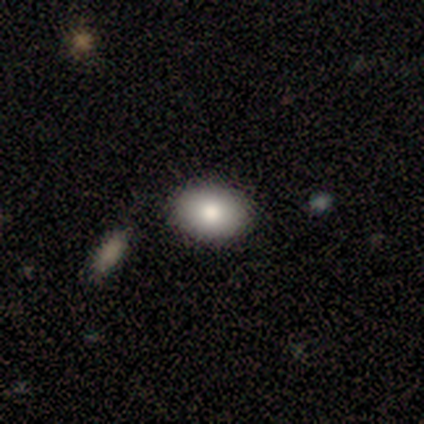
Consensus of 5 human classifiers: A smooth galaxy with no disk features (80%) that is in between round and cigar-shaped (75%).

Vote fractions:
- Smooth or featured? smooth: 80% / star or artifact: 20% / featured or disk: 0%
- How rounded? in between: 75% / round: 25% / cigar-shaped: 0%
- Merging? none: 100% / minor disturbance: 0% / major disturbance: 0% / merger: 0%